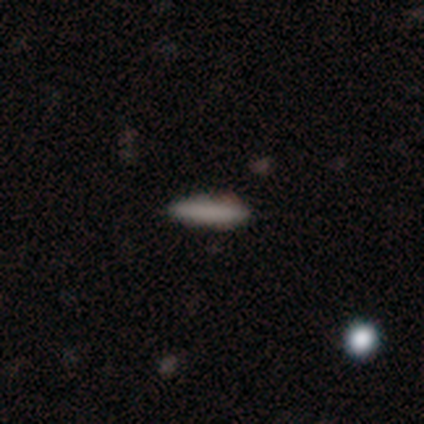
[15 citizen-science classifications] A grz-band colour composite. It shows a smooth galaxy with no disk features (80%) that is cigar-shaped (83%). Merging: none (100%).